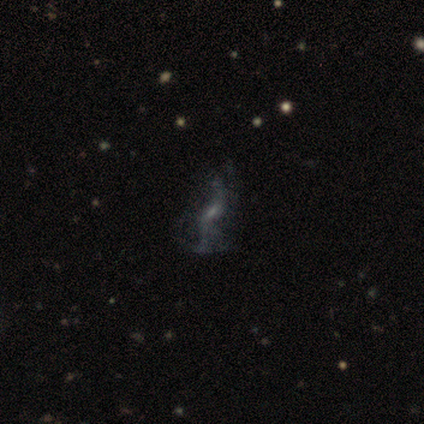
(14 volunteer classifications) A featured or disk galaxy (86%) with no bar (50%), 2 (89%) loose (89%) spiral arms (75%) and no central bulge (42%).

Vote fractions:
- Smooth or featured? featured or disk: 86% / smooth: 14% / star or artifact: 0%
- Edge-on disk? no: 100% / yes: 0%
- Bar? no: 50% / weak: 33% / strong: 17%
- Spiral arms? yes: 75% / no: 25%
- Spiral winding? loose: 89% / medium: 11% / tight: 0%
- Spiral arm count? 2: 89% / 4: 11% / 1: 0% / 3: 0% / more than 4: 0% / can't tell: 0%
- Bulge size? none: 42% / small: 33% / moderate: 25% / dominant: 0% / large: 0%
- Merging? none: 57% / minor disturbance: 21% / merger: 14% / major disturbance: 7%